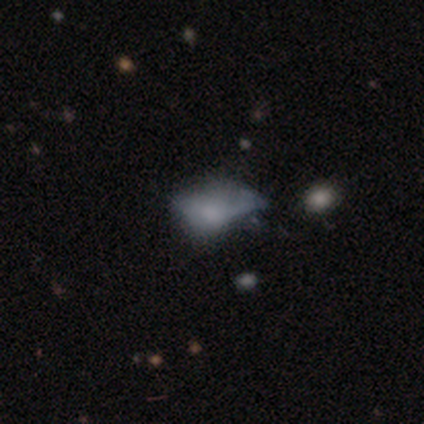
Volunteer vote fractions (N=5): This appears to be a featured or disk galaxy (60%) with no bar (100%), no spiral arms (100%) and a moderate central bulge (50%, tied with none). Merging: major disturbance (80%).